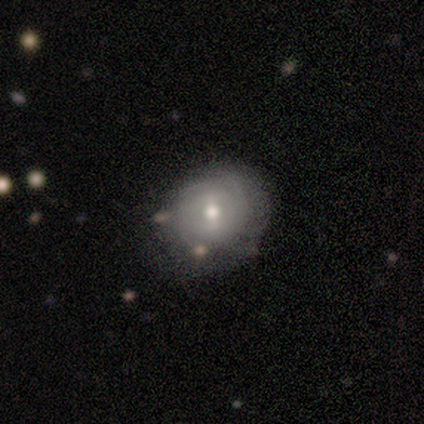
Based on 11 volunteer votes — Smooth or featured? 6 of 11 (55%) said featured or disk. Edge-on disk? 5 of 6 (83%) said no. Bar? 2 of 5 (40%, tied with weak) said strong. Spiral arms? 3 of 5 (60%) said yes. Spiral winding? 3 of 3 (100%) said tight. Spiral arm count? 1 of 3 (33%, tied with 4 and can't tell) said 3. Bulge size? 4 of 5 (80%) said moderate. Merging? 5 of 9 (56%) said minor disturbance.